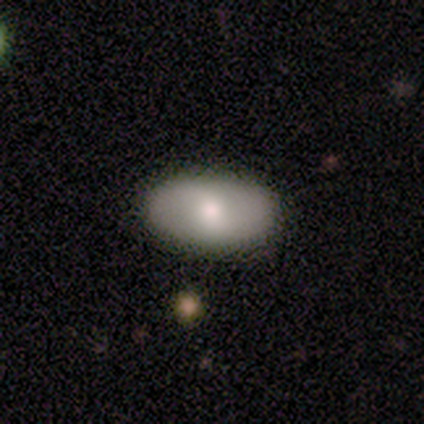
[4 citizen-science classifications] A smooth galaxy with no disk features (100%) that is in between round and cigar-shaped (100%).

Vote fractions:
- Smooth or featured? smooth: 100% / featured or disk: 0% / star or artifact: 0%
- How rounded? in between: 100% / round: 0% / cigar-shaped: 0%
- Merging? none: 100% / minor disturbance: 0% / major disturbance: 0% / merger: 0%